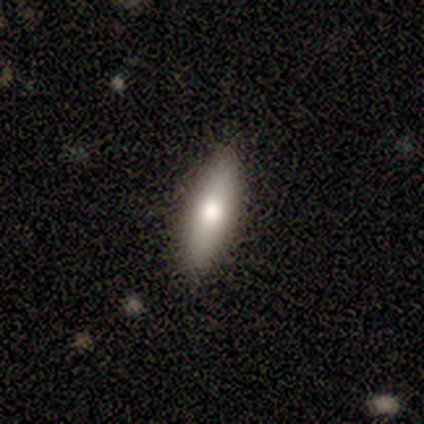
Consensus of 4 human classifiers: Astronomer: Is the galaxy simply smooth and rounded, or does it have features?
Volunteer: smooth — 50%, tied with featured or disk at 50%.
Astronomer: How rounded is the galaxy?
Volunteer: in between — 100%.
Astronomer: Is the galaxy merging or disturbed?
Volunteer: none — 75%.